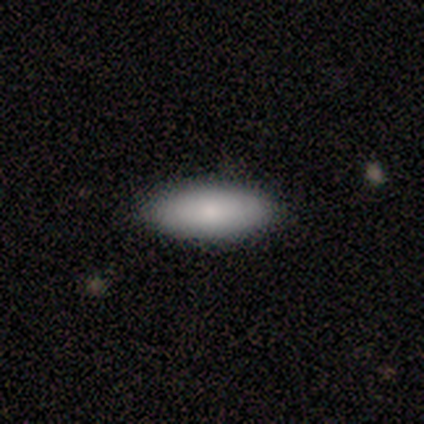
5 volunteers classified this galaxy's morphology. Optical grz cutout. It shows a smooth galaxy with no disk features (60%) that is in between round and cigar-shaped (100%). Merging: none (100%).